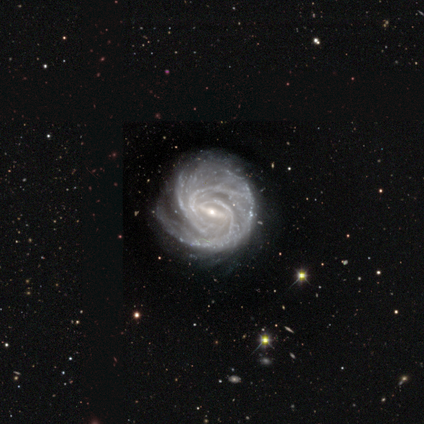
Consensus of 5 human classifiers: Smooth or featured? featured or disk (100%)
Edge-on disk? no (100%)
Bar? strong (80%)
Spiral arms? yes (100%)
Spiral winding? tight (100%)
Spiral arm count? 4 (60%)
Bulge size? small (80%)
Merging? none (100%)